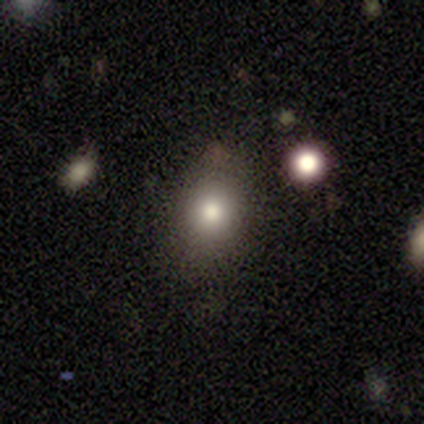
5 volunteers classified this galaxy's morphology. Smooth or featured: smooth — 80% (featured or disk — 20%)
How rounded: round — 50% (tied with in between — 50%)
Merging: none — 80% (minor disturbance — 20%)